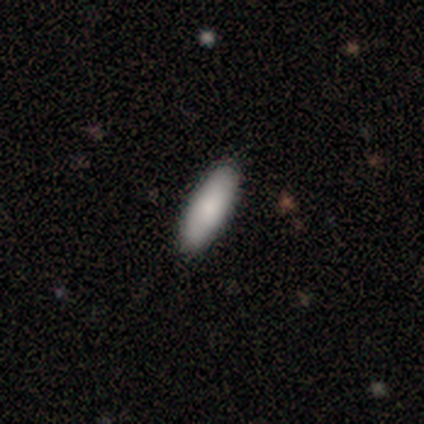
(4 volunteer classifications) Overall: smooth (100%). How rounded: in between (75%). Merging: none (75%).